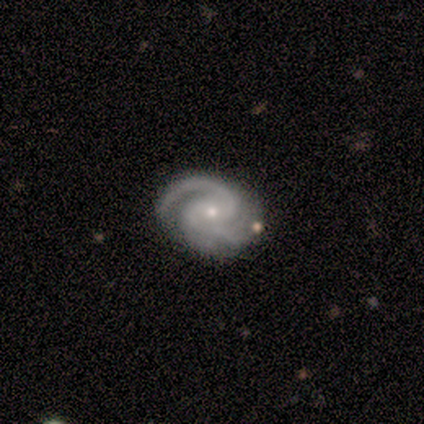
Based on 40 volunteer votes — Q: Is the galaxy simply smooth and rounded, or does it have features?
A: featured or disk — 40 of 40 (100%).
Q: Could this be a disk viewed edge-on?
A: no — 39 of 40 (98%).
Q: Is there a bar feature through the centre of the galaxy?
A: no — 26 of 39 (67%).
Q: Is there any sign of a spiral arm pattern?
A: yes — 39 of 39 (100%).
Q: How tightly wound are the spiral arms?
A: medium — 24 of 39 (62%).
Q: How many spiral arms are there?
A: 2 — 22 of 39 (56%).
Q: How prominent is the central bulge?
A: small — 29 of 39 (74%).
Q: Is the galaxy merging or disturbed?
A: none — 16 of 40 (40%).